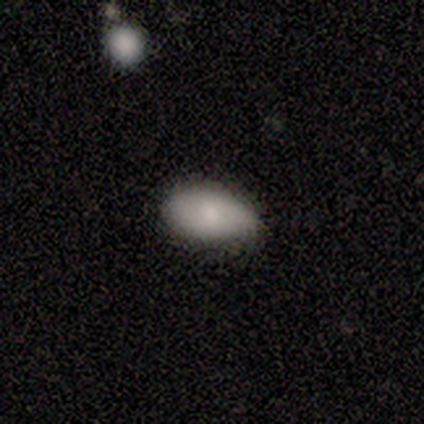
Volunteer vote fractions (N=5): Overall: smooth (40%, tied with featured or disk). How rounded: in between (100%). Merging: none (75%).